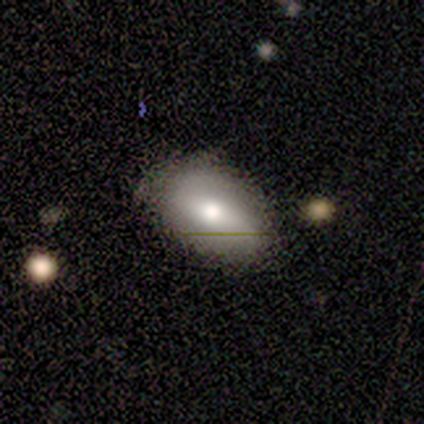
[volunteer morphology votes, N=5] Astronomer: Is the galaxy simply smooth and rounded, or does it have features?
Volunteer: smooth — 60%.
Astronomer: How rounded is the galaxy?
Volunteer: in between — 100%.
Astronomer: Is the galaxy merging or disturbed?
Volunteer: none — 75%.